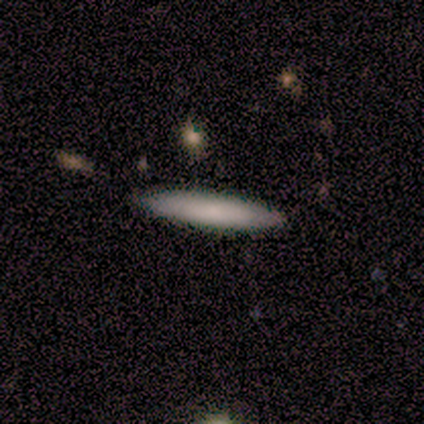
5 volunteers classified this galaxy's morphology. smooth_or_featured: smooth (p=0.80) [alt: featured or disk p=0.20]
how_rounded: cigar-shaped (p=1.00)
merging: none (p=1.00)